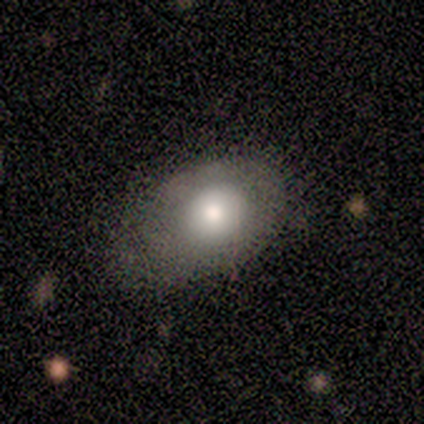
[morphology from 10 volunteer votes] smooth 80%, featured or disk 10%, star or artifact 10%. Down the decision tree: how rounded — in between (75%); merging — none (44%).